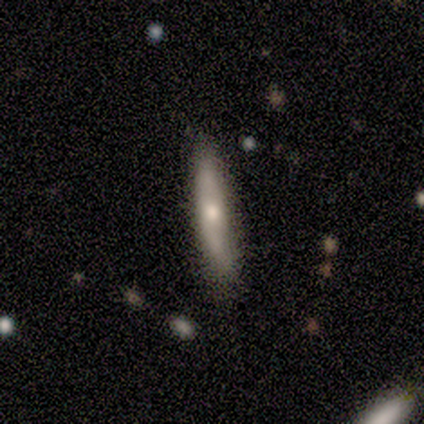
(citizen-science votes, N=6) A featured or disk galaxy (83%) viewed edge-on (100%) with a rounded central bulge (100%).

Vote fractions:
- Smooth or featured? featured or disk: 83% / smooth: 17% / star or artifact: 0%
- Edge-on disk? yes: 100% / no: 0%
- Edge-on bulge? rounded: 100% / boxy: 0% / none: 0%
- Merging? none: 83% / minor disturbance: 17% / major disturbance: 0% / merger: 0%